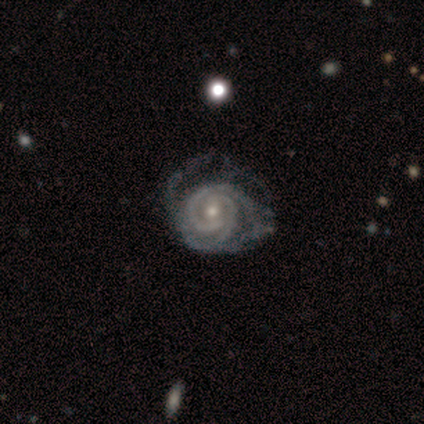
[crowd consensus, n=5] This appears to be a featured or disk galaxy (100%) with no bar (60%), 3 (75%) tight (100%) spiral arms (80%) and a moderate central bulge (60%). Merging: none (60%).